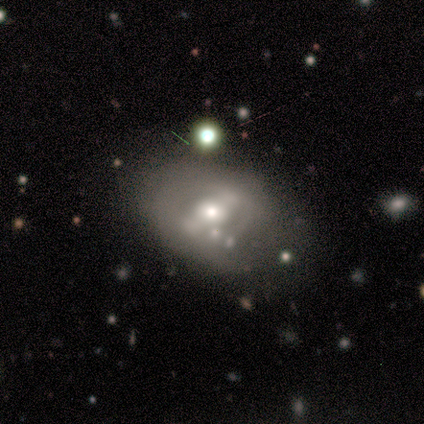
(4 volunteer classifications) A featured or disk galaxy (100%) with no bar (50%), no spiral arms (100%) and a small central bulge (75%).

Vote fractions:
- Smooth or featured? featured or disk: 100% / smooth: 0% / star or artifact: 0%
- Edge-on disk? no: 100% / yes: 0%
- Bar? no: 50% / strong: 25% / weak: 25%
- Spiral arms? no: 100% / yes: 0%
- Bulge size? small: 75% / moderate: 25% / dominant: 0% / large: 0% / none: 0%
- Merging? none: 75% / merger: 25% / minor disturbance: 0% / major disturbance: 0%